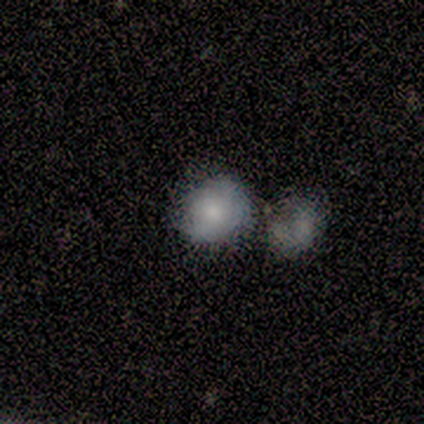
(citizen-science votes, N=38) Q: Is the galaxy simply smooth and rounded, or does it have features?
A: smooth — 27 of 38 (71%).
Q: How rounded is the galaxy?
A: round — 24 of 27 (89%).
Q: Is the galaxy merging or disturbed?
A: merger — 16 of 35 (46%).